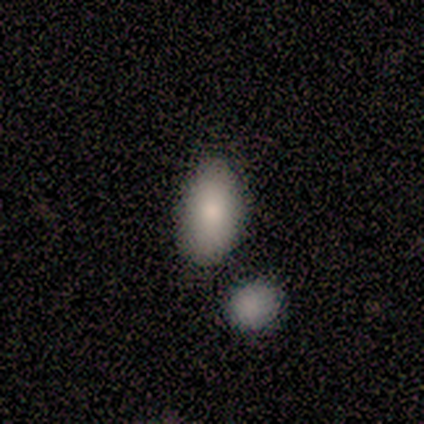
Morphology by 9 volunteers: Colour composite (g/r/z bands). It shows a smooth galaxy with no disk features (89%) that is in between round and cigar-shaped (100%). Merging: none (100%).